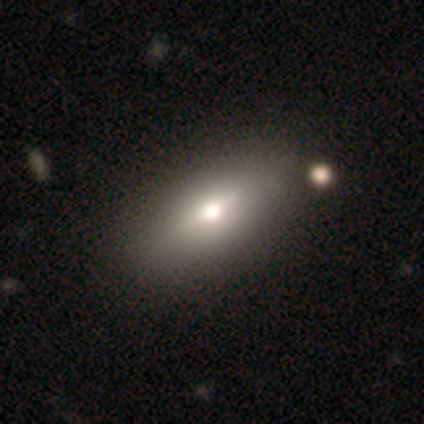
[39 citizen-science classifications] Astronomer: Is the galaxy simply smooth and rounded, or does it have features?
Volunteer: featured or disk — 51% (runner-up: smooth, 49%).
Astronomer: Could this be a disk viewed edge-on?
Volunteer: yes — 55% (runner-up: no, 45%).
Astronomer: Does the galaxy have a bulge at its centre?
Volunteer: rounded — 91%.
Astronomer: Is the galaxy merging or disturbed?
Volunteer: none — 62%.